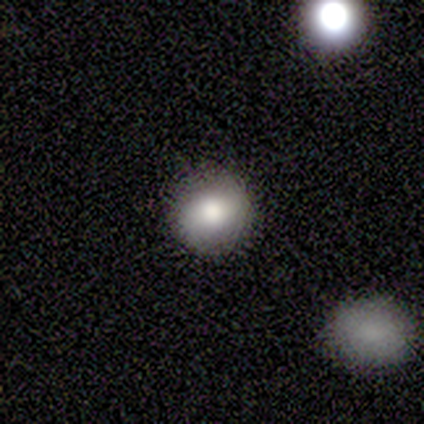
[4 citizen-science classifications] Q: Smooth or featured?
A: smooth (100%)
Q: How rounded?
A: round (100%)
Q: Merging?
A: none (100%)